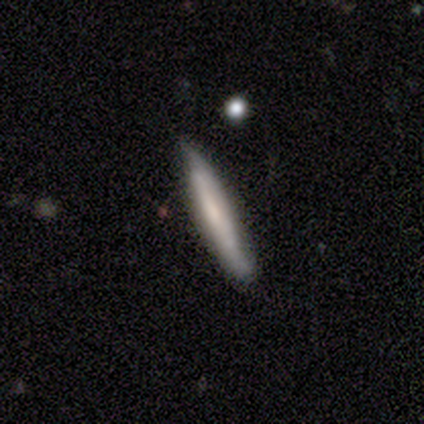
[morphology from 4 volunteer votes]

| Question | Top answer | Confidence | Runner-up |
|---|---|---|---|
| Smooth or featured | smooth | 50% | tied: featured or disk (50%) |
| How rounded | cigar-shaped | 100% | — |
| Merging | minor disturbance | 50% | none (25%) |